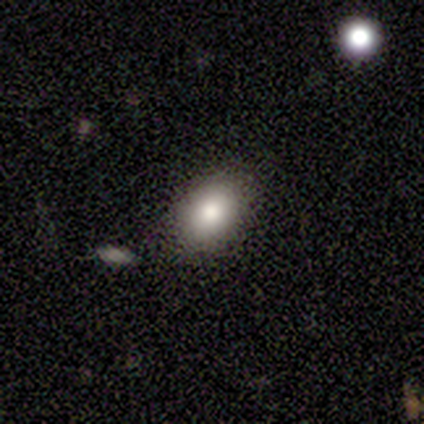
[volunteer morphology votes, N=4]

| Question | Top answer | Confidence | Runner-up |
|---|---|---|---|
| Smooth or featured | smooth | 75% | star or artifact (25%) |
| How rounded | round | 67% | in between (33%) |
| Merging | none | 100% | — |